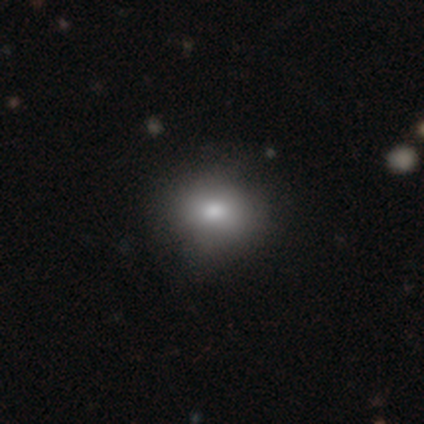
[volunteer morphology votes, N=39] Smooth or featured? smooth (85%)
How rounded? round (61%)
Merging? none (82%)